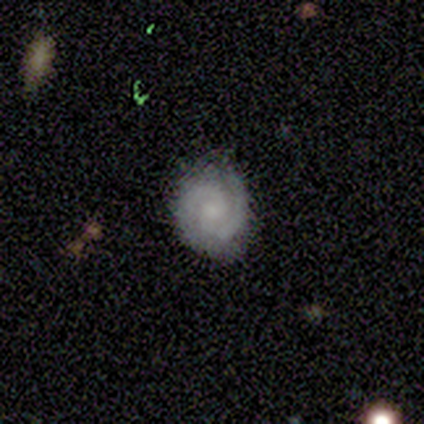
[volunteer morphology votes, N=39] Q: Smooth or featured?
A: featured or disk (85%); runner-up: smooth (8%)
Q: Edge-on disk?
A: no (100%)
Q: Bar?
A: no (55%); runner-up: weak (45%)
Q: Spiral arms?
A: yes (100%)
Q: Spiral winding?
A: tight (64%); runner-up: medium (36%)
Q: Spiral arm count?
A: 2 (97%); runner-up: 1 (3%)
Q: Bulge size?
A: small (55%); runner-up: moderate (24%)
Q: Merging?
A: none (92%); runner-up: minor disturbance (8%)